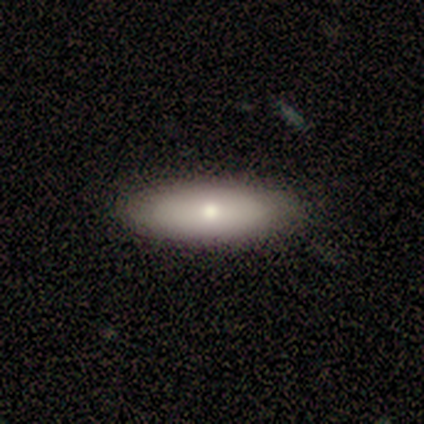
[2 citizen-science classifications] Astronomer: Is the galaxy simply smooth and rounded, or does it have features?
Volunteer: smooth — 100%.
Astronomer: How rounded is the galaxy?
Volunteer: in between — 50%, tied with cigar-shaped at 50%.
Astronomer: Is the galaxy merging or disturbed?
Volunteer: none — 100%.